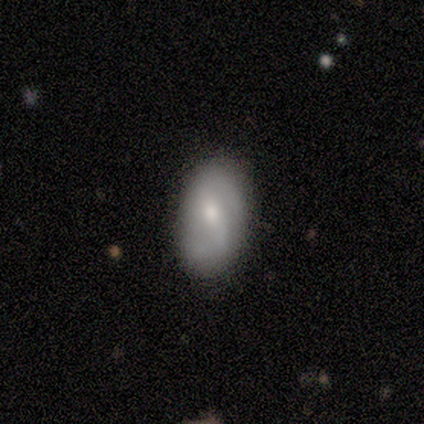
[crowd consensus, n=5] Morphology: type=smooth (40%, tied with featured or disk); roundness=in between (100%); merging=none (75%).